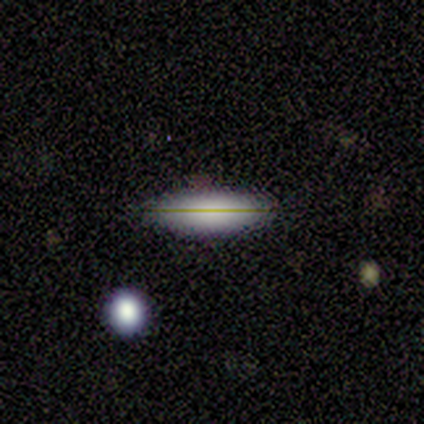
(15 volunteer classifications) Smooth or featured: smooth — 53% (featured or disk — 33%)
How rounded: cigar-shaped — 75% (in between — 25%)
Merging: none — 100%